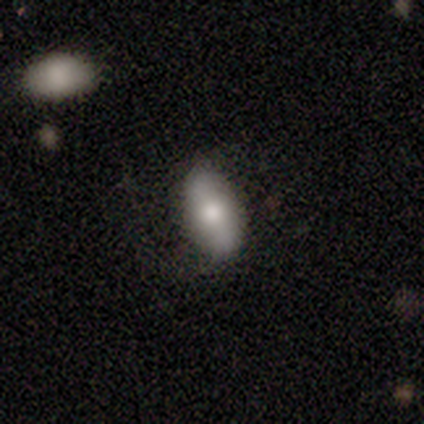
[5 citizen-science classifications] smooth 80%, star or artifact 20%, featured or disk 0%. Down the decision tree: how rounded — in between (100%); merging — none (100%).